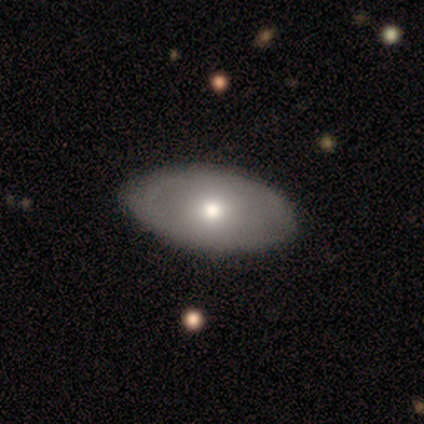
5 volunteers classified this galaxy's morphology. This is likely a smooth galaxy (60%). How rounded: clearly in between (100%). Merging: clearly none (100%).